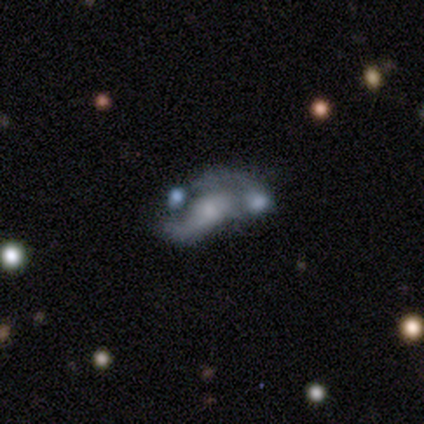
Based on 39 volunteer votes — Smooth or featured: featured or disk — 77% (smooth — 15%)
Edge-on disk: no — 97% (yes — 3%)
Bar: no — 66% (weak — 24%)
Spiral arms: yes — 69% (no — 31%)
Spiral winding: loose — 80% (medium — 15%)
Spiral arm count: 2 — 55% (1 — 25%)
Bulge size: small — 48% (moderate — 28%)
Merging: merger — 47% (minor disturbance — 19%)